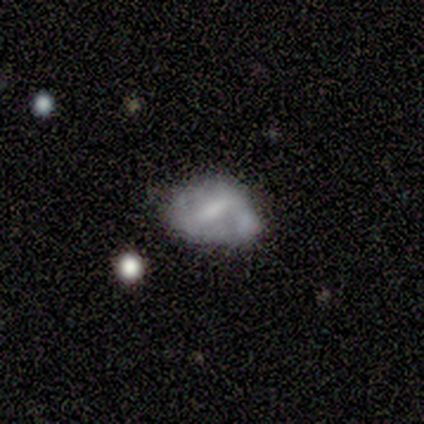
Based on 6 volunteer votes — Smooth or featured?
  - featured or disk: 67% *
  - smooth: 33%
  - star or artifact: 0%
Edge-on disk?
  - no: 100% *
  - yes: 0%
Bar?
  - weak: 75% *
  - no: 25%
  - strong: 0%
Spiral arms?
  - yes: 75% *
  - no: 25%
Spiral winding?
  - loose: 67% *
  - tight: 33%
  - medium: 0%
Spiral arm count?
  - 2: 67% *
  - can't tell: 33%
  - 1: 0%
  - 3: 0%
  - 4: 0%
  - more than 4: 0%
Bulge size?
  - small: 50% * (tied)
  - none: 50% * (tied)
  - dominant: 0%
  - large: 0%
  - moderate: 0%
Merging?
  - none: 50% *
  - minor disturbance: 17%
  - major disturbance: 17%
  - merger: 17%